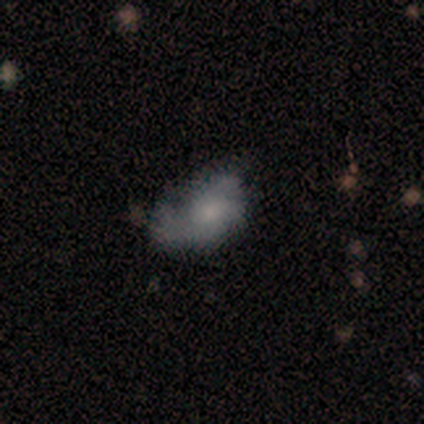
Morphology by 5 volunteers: Smooth or featured: smooth — 60% (featured or disk — 40%)
How rounded: in between — 100%
Merging: none — 40% (tied with minor disturbance — 40%)